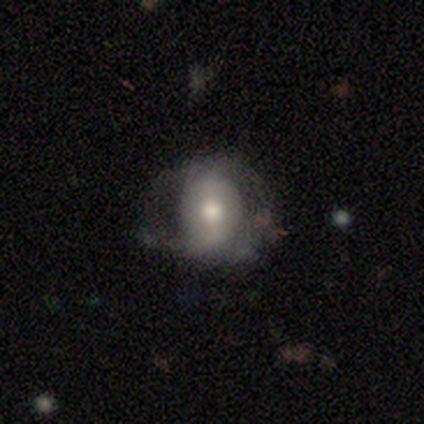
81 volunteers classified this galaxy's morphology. This appears to be a smooth galaxy with no disk features (59%) that is in between round and cigar-shaped (58%). Merging: none (43%).